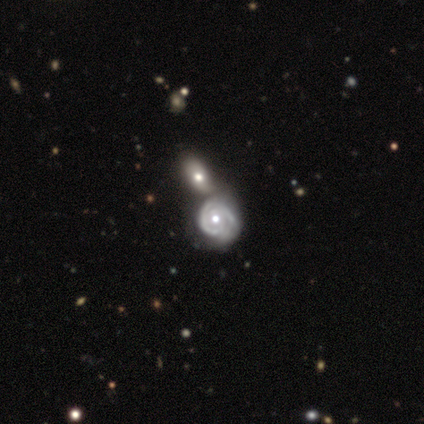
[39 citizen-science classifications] A featured or disk galaxy (90%) with no bar (65%), 2 (55%) tight (72%) spiral arms (85%) and a moderate central bulge (76%). Merging: merger (66%).